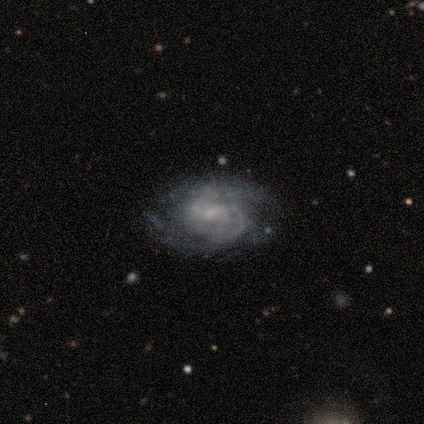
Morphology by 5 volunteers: Smooth or featured: featured or disk — 100%
Edge-on disk: no — 100%
Bar: weak — 60% (strong — 20%)
Spiral arms: yes — 80% (no — 20%)
Spiral winding: medium — 75% (tight — 25%)
Spiral arm count: 2 — 100%
Bulge size: moderate — 40% (tied with small — 40%)
Merging: none — 100%